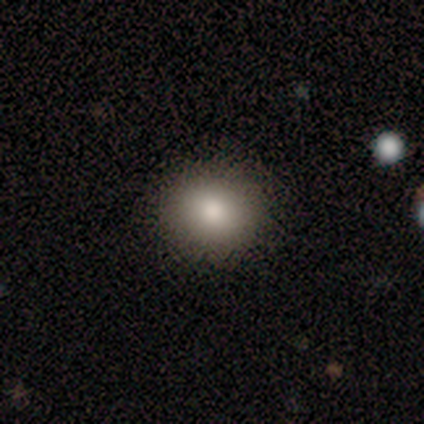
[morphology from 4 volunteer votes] type=smooth (100%); roundness=round (75%); merging=none (100%).